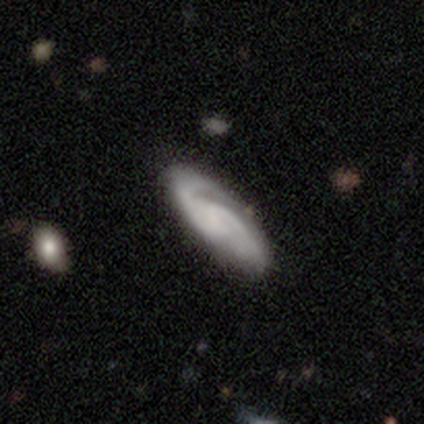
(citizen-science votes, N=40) Overall: featured or disk (72%). Edge-on disk: no (86%). Bar: weak (48%, tied with no). Spiral arms: yes (100%). Spiral arm count: 2 (76%). Spiral winding: tight (48%; medium 36%). Bulge size: none (72%). Merging: none (75%).